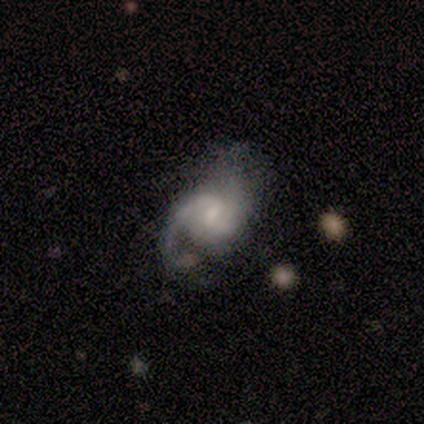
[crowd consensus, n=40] Smooth or featured?
  - featured or disk: 82% *
  - smooth: 15%
  - star or artifact: 2%
Edge-on disk?
  - no: 100% *
  - yes: 0%
Bar?
  - weak: 45% * (tied)
  - no: 45% * (tied)
  - strong: 9%
Spiral arms?
  - yes: 97% *
  - no: 3%
Spiral winding?
  - medium: 44% *
  - loose: 41%
  - tight: 16%
Spiral arm count?
  - 2: 62% *
  - 1: 34%
  - can't tell: 3%
  - 3: 0%
  - 4: 0%
  - more than 4: 0%
Bulge size?
  - small: 45% *
  - moderate: 39%
  - none: 9%
  - large: 6%
  - dominant: 0%
Merging?
  - major disturbance: 28% *
  - none: 23%
  - minor disturbance: 13%
  - merger: 0%